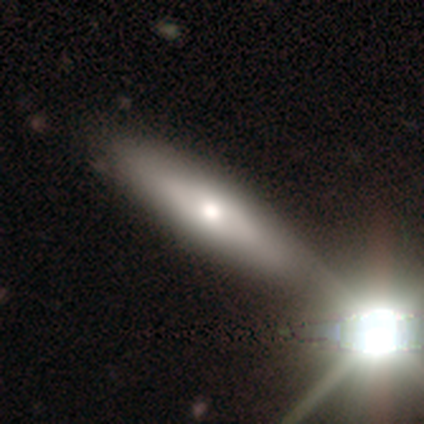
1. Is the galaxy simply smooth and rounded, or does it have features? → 67% smooth, 33% featured or disk, 0% star or artifact.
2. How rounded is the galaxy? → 100% in between, 0% round, 0% cigar-shaped.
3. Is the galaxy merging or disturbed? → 67% none, 33% merger, 0% minor disturbance, 0% major disturbance.